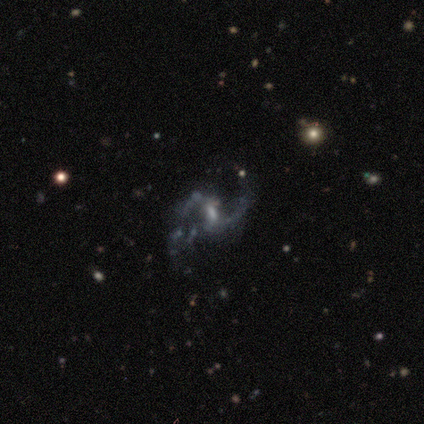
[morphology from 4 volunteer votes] Smooth or featured? featured or disk (75%)
Edge-on disk? no (100%)
Bar? weak (67%)
Spiral arms? yes (100%)
Spiral winding? loose (67%)
Spiral arm count? 2 (100%)
Bulge size? small (67%)
Merging? none (50%)